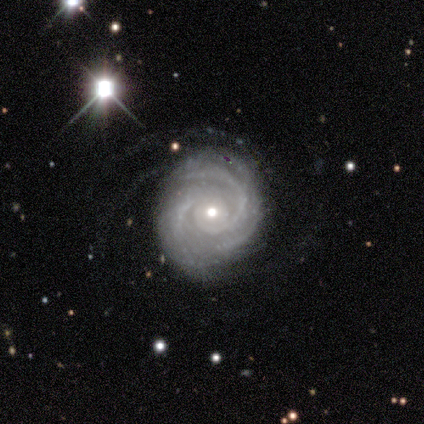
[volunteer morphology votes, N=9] type=featured or disk (100%); edge-on=no (100%); bar=no (67%); spiral arms=yes (100%); winding=tight (89%); arm count=more than 4 (33%, tied with can't tell); bulge=moderate (67%); merging=none (56%).